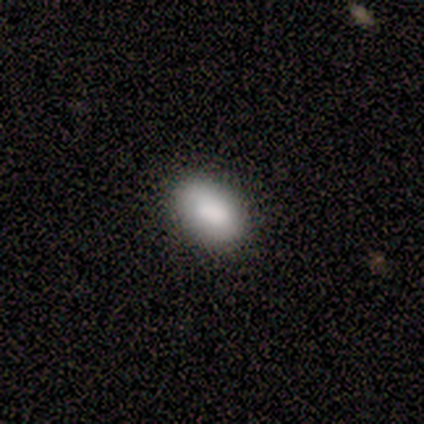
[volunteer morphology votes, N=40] Smooth or featured? 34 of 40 (85%) said smooth. How rounded? 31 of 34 (91%) said in between. Merging? 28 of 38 (74%) said none.